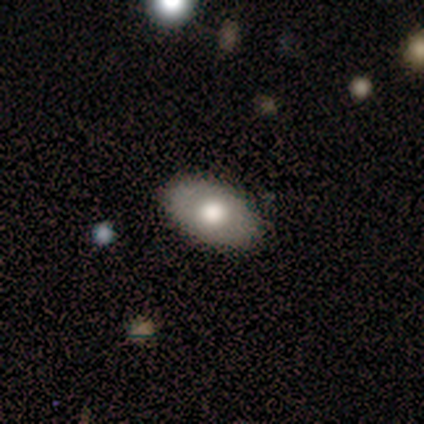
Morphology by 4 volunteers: A smooth galaxy with no disk features (75%) that is in between round and cigar-shaped (100%). Merging: none (100%).